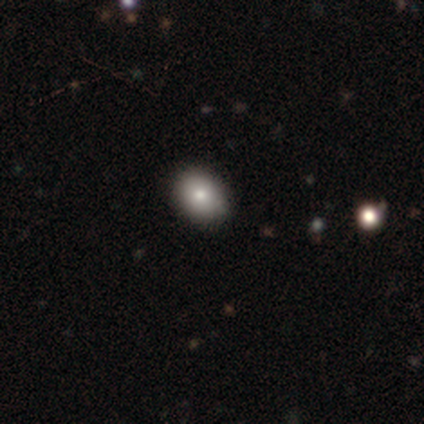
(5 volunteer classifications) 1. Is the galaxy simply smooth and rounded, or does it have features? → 80% smooth, 20% star or artifact, 0% featured or disk.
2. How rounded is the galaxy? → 75% round, 25% in between, 0% cigar-shaped.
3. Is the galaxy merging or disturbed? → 75% none, 25% minor disturbance, 0% major disturbance, 0% merger.